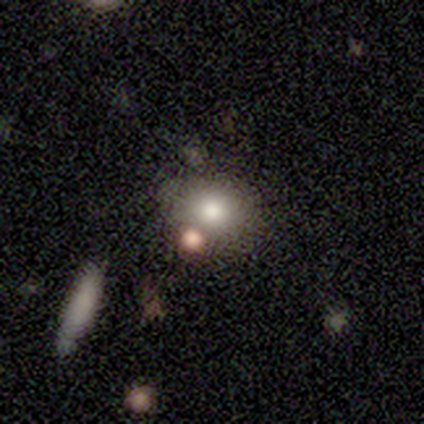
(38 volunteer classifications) This appears to be a smooth galaxy with no disk features (74%) that is round (68%). Merging: none (67%).